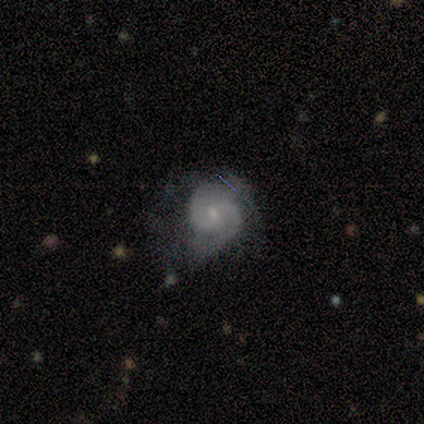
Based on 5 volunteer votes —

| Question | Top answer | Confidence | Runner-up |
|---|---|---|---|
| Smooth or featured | featured or disk | 80% | smooth (20%) |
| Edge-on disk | no | 100% | — |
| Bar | weak | 75% | no (25%) |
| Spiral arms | yes | 100% | — |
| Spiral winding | tight | 75% | loose (25%) |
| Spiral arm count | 2 | 100% | — |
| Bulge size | small | 75% | moderate (25%) |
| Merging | none | 60% | minor disturbance (40%) |